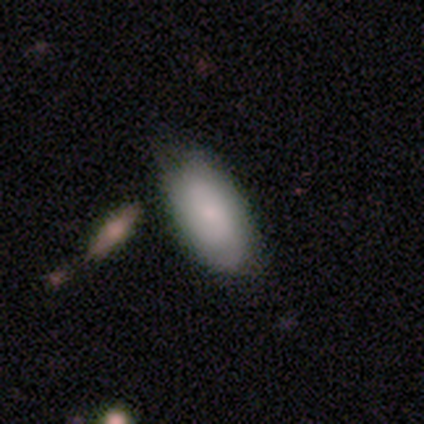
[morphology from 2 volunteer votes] A featured or disk galaxy (100%) with a weak bar (50%, tied with no), 2 (50%, tied with 3) tight (50%, tied with medium) spiral arms (100%) and a moderate central bulge (50%, tied with small). Merging: none (100%).